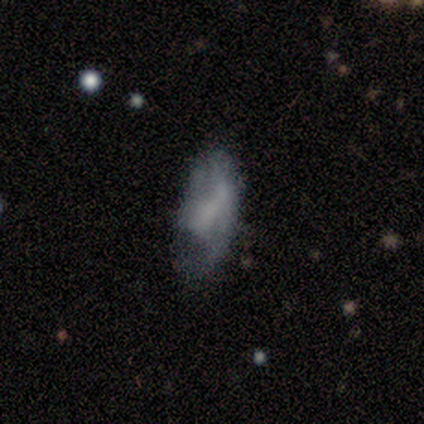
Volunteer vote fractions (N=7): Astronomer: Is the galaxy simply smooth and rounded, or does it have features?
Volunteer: smooth — 86%.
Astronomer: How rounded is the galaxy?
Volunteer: in between — 100%.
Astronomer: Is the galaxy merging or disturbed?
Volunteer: minor disturbance — 57%.